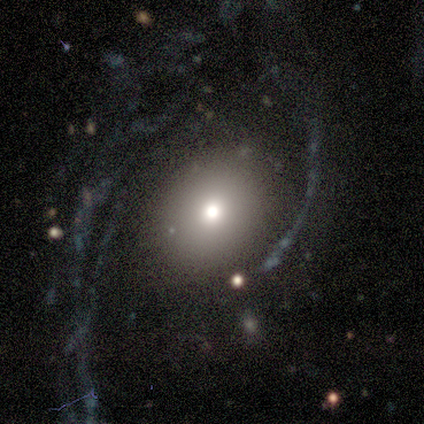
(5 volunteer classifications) smooth-or-featured: smooth: 40% (tied) | featured or disk: 40% (tied) | star or artifact: 20%
  how-rounded: round: 100% | in between: 0% | cigar-shaped: 0%
  merging: none: 75% | major disturbance: 25% | minor disturbance: 0% | merger: 0%